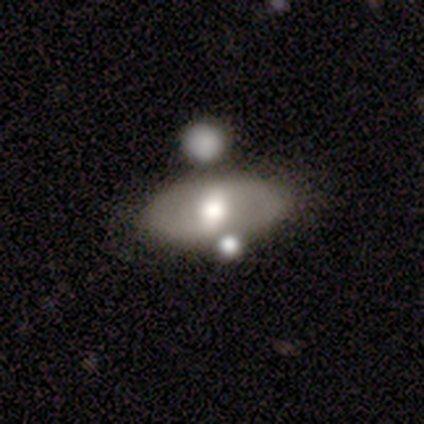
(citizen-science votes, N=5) Smooth or featured? featured or disk (60%)
Edge-on disk? no (100%)
Bar? weak (100%)
Spiral arms? yes (67%)
Spiral winding? tight (50%, tied with loose)
Spiral arm count? 2 (100%)
Bulge size? moderate (67%)
Merging? none (50%, tied with merger)